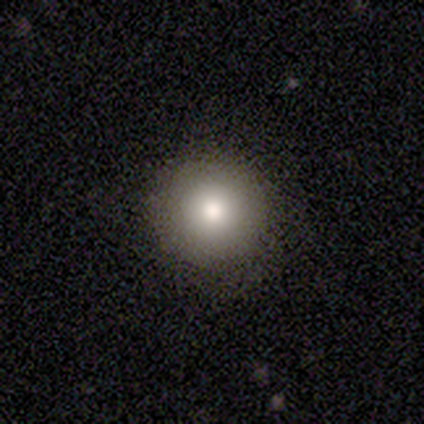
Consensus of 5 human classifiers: Smooth or featured: smooth — 100%
How rounded: round — 100%
Merging: none — 80% (minor disturbance — 20%)